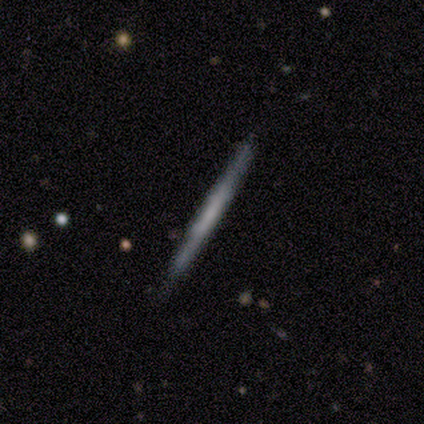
A featured or disk galaxy (68%) viewed edge-on (96%) with no central bulge (88%).

Vote fractions:
- Smooth or featured? featured or disk: 68% / smooth: 30% / star or artifact: 2%
- Edge-on disk? yes: 96% / no: 4%
- Edge-on bulge? none: 88% / boxy: 12% / rounded: 0%
- Merging? none: 95% / minor disturbance: 3% / merger: 3% / major disturbance: 0%